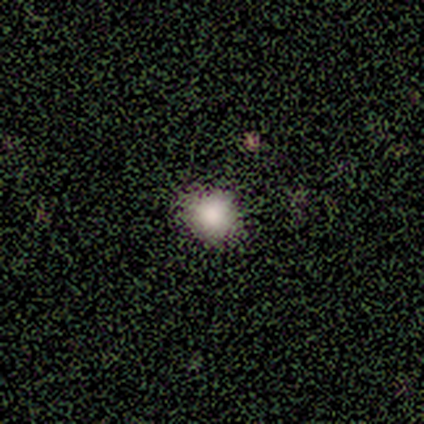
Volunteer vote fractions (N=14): Q: Smooth or featured?
A: smooth (86%); runner-up: featured or disk (7%)
Q: How rounded?
A: round (92%); runner-up: in between (8%)
Q: Merging?
A: none (100%)